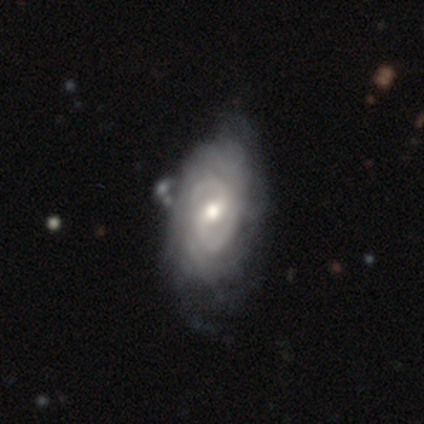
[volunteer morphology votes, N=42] type=featured or disk (67%); edge-on=no (100%); bar=weak (50%, tied with no); spiral arms=yes (93%); winding=tight (73%); arm count=2 (42%, tied with can't tell); bulge=moderate (68%); merging=none (53%).